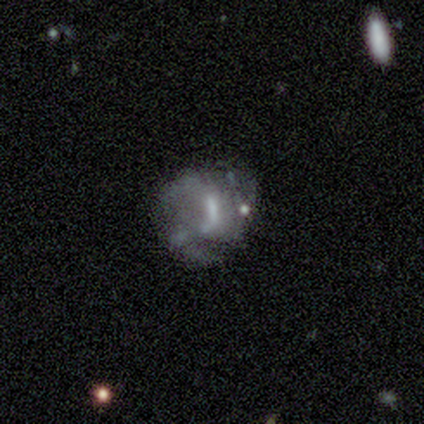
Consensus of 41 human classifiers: Smooth or featured: featured or disk — 66% (smooth — 24%)
Edge-on disk: no — 100%
Bar: strong — 41% (weak — 33%)
Spiral arms: yes — 74% (no — 26%)
Spiral winding: medium — 50% (tight — 25%)
Spiral arm count: 3 — 40% (2 — 35%)
Bulge size: moderate — 37% (small — 33%)
Merging: minor disturbance — 35% (none — 32%)